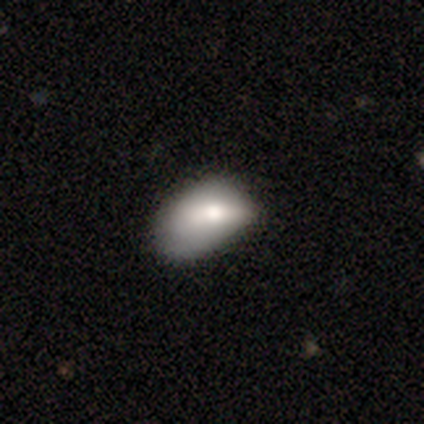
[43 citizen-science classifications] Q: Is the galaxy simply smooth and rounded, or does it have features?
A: smooth — 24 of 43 (56%).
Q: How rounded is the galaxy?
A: in between — 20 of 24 (83%).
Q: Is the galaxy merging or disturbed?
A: minor disturbance — 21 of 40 (52%).